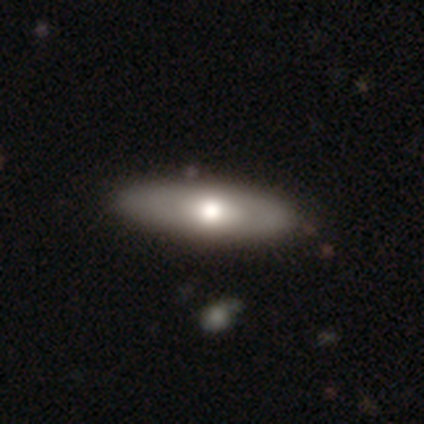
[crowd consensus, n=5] This appears to be a featured or disk galaxy (60%) with no bar (100%), no spiral arms (100%) and a large central bulge (67%). Merging: none (80%).